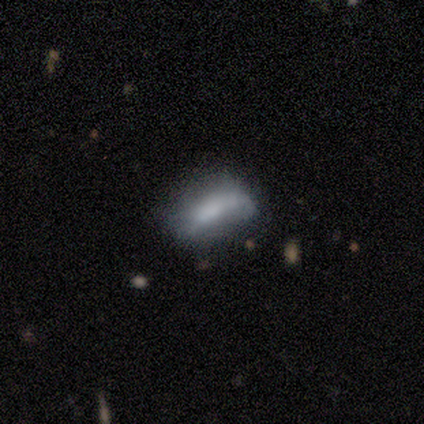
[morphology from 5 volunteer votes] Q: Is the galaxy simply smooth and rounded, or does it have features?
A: smooth — 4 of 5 (80%).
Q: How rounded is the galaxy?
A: in between — 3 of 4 (75%).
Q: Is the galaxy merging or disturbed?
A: none — 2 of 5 (40%).